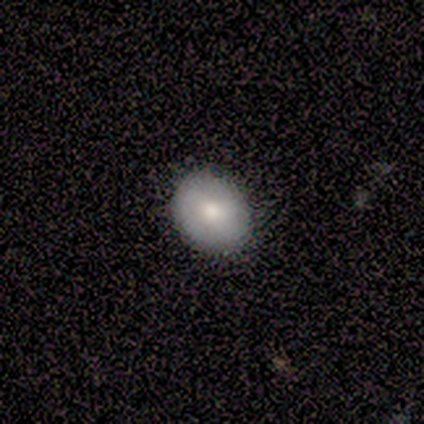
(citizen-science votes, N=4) smooth-or-featured: featured or disk: 50% | smooth: 25% | star or artifact: 25%
  disk-edge-on: yes: 50% (tied) | no: 50% (tied)
    edge-on-bulge: rounded: 100% | boxy: 0% | none: 0%
  merging: none: 100% | minor disturbance: 0% | major disturbance: 0% | merger: 0%